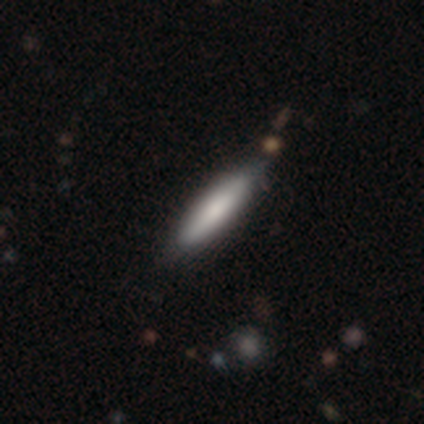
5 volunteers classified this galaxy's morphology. Volunteers were most divided on "how rounded": cigar-shaped: 75%, in between: 25%, round: 0%. More confident: smooth or featured — smooth (80%); merging — none (80%).